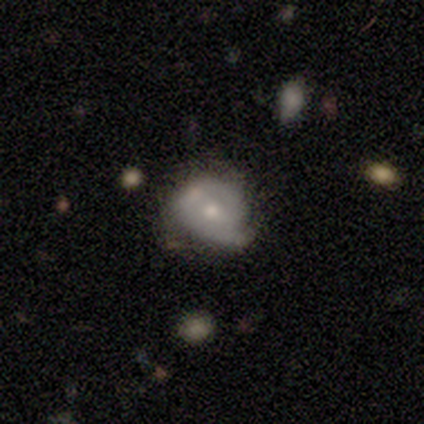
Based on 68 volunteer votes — smooth-or-featured: featured or disk: 57% | smooth: 35% | star or artifact: 7%
  disk-edge-on: no: 97% | yes: 3%
    bar: no: 68% | weak: 26% | strong: 5%
    has-spiral-arms: yes: 71% | no: 29%
      spiral-winding: tight: 74% | medium: 22% | loose: 4%
      spiral-arm-count: 2: 56% | 1: 22% | 3: 11% | can't tell: 11% | 4: 0% | more than 4: 0%
    bulge-size: moderate: 66% | small: 29% | large: 5% | dominant: 0% | none: 0%
  merging: minor disturbance: 46% | none: 40% | major disturbance: 10% | merger: 5%